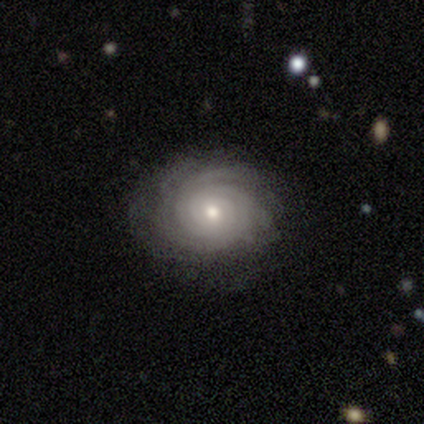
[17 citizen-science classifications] Smooth or featured?
  - featured or disk: 100% *
  - smooth: 0%
  - star or artifact: 0%
Edge-on disk?
  - no: 100% *
  - yes: 0%
Bar?
  - no: 82% *
  - weak: 18%
  - strong: 0%
Spiral arms?
  - yes: 100% *
  - no: 0%
Spiral winding?
  - tight: 94% *
  - medium: 6%
  - loose: 0%
Spiral arm count?
  - can't tell: 53% *
  - 3: 18%
  - more than 4: 18%
  - 2: 6%
  - 4: 6%
  - 1: 0%
Bulge size?
  - small: 47% *
  - moderate: 41%
  - dominant: 6%
  - none: 6%
  - large: 0%
Merging?
  - none: 88% *
  - minor disturbance: 12%
  - major disturbance: 0%
  - merger: 0%